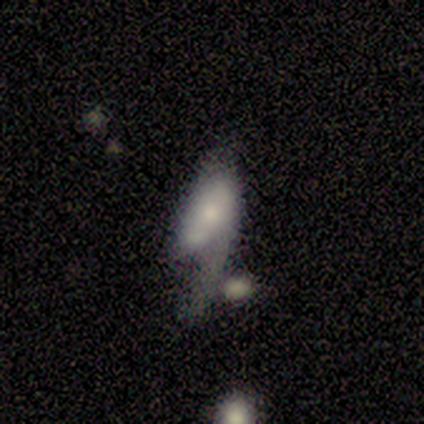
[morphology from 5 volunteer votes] smooth_or_featured: smooth (p=0.80) [alt: featured or disk p=0.20]
how_rounded: in between (p=1.00)
merging: major disturbance (p=0.60) [alt: minor disturbance p=0.20]